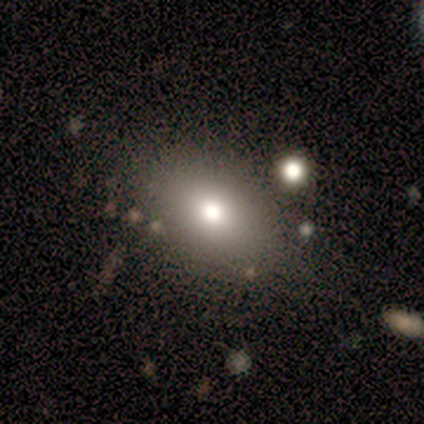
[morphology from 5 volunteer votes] type=smooth (100%); roundness=round (60%); merging=none (60%).